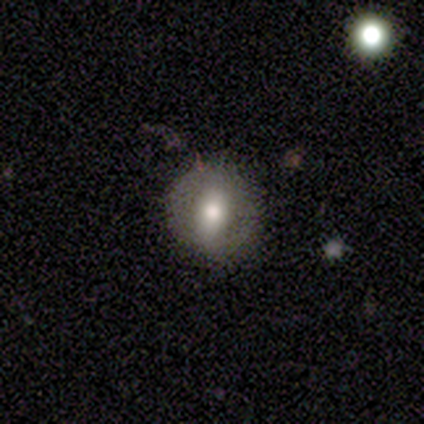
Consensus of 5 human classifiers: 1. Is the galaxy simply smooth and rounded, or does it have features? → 60% smooth, 20% featured or disk, 20% star or artifact.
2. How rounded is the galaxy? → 67% round, 33% in between, 0% cigar-shaped.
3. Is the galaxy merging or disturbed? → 100% none, 0% minor disturbance, 0% major disturbance, 0% merger.